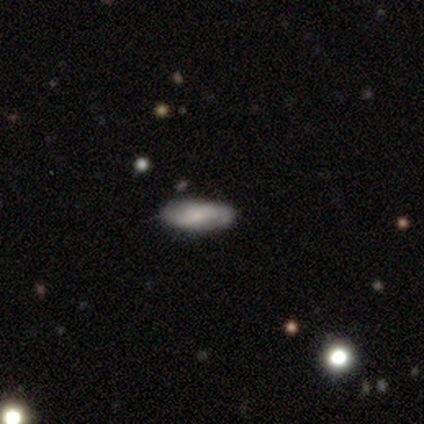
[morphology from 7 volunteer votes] A smooth galaxy with no disk features (57%) that is in between round and cigar-shaped (75%). Merging: none (83%).